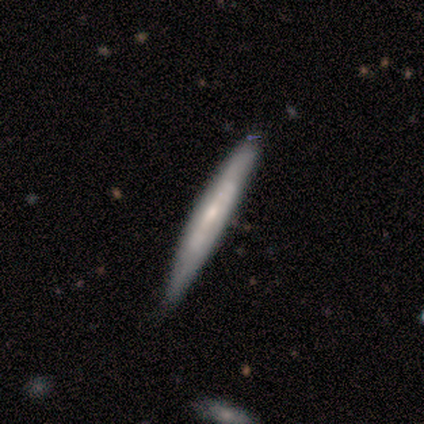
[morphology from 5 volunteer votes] featured or disk 60%, smooth 40%, star or artifact 0%. Down the decision tree: edge-on disk — no (67%); bar — no (100%); spiral arms — yes (100%); spiral arm count — 2 (50%, tied with can't tell); spiral winding — medium (50%, tied with loose); bulge size — small (50%, tied with none); merging — none (80%).